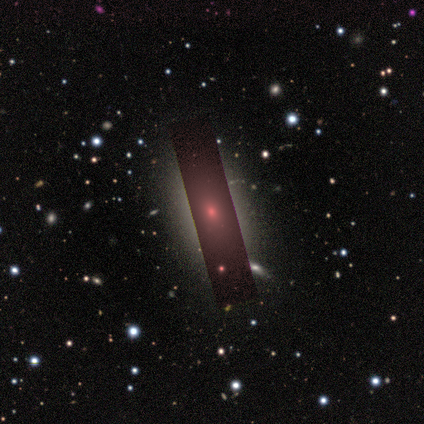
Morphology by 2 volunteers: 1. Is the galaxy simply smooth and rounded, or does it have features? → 50% smooth (tied), 50% star or artifact (tied), 0% featured or disk.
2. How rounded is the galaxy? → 100% in between, 0% round, 0% cigar-shaped.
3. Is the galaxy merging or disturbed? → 100% none, 0% minor disturbance, 0% major disturbance, 0% merger.